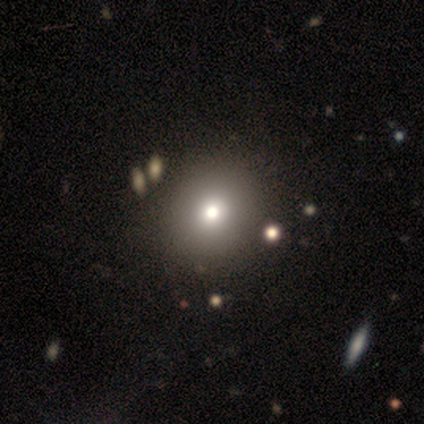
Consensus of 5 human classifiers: Smooth or featured? 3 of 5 (60%) said smooth. How rounded? 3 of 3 (100%) said round. Merging? 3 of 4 (75%) said none.